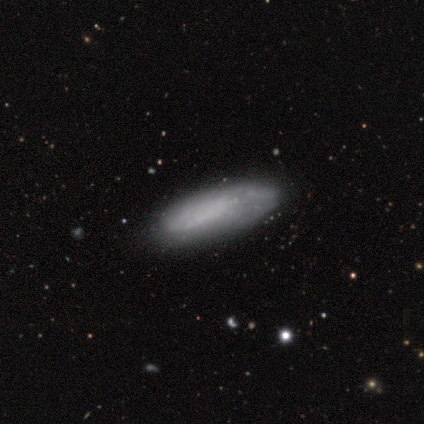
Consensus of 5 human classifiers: smooth-or-featured: smooth: 100% | featured or disk: 0% | star or artifact: 0%
  how-rounded: in between: 80% | cigar-shaped: 20% | round: 0%
  merging: none: 80% | minor disturbance: 20% | major disturbance: 0% | merger: 0%